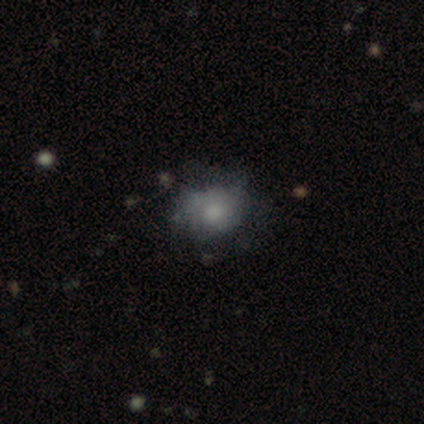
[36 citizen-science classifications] A smooth galaxy with no disk features (53%) that is round (58%). Merging: minor disturbance (41%).